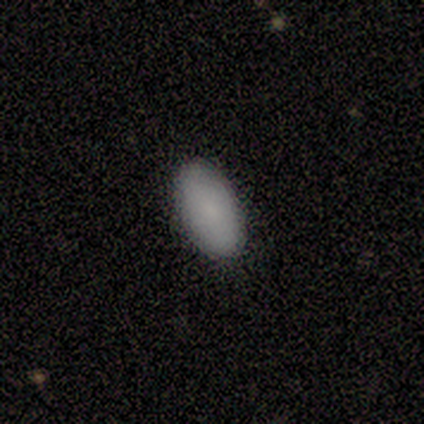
Smooth or featured? smooth (100%)
How rounded? in between (100%)
Merging? none (100%)